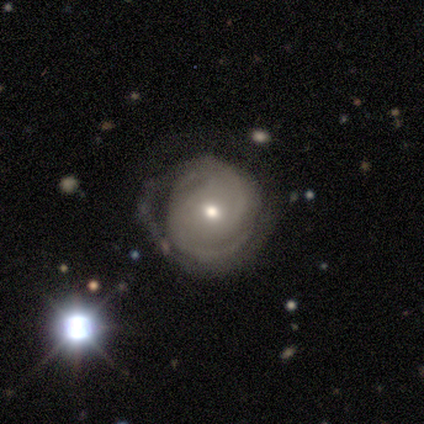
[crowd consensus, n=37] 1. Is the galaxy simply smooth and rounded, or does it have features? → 78% featured or disk, 16% smooth, 5% star or artifact.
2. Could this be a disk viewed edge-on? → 100% no, 0% yes.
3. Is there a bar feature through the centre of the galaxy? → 48% weak (tied), 48% no (tied), 3% strong.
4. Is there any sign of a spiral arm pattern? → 90% yes, 10% no.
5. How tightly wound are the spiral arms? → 50% tight, 38% medium, 12% loose.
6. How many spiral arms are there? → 50% can't tell, 38% 2, 8% 3, 4% 4, 0% 1, 0% more than 4.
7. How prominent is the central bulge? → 48% small, 45% moderate, 3% large, 3% none, 0% dominant.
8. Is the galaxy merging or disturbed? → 66% none, 23% minor disturbance, 11% major disturbance, 0% merger.